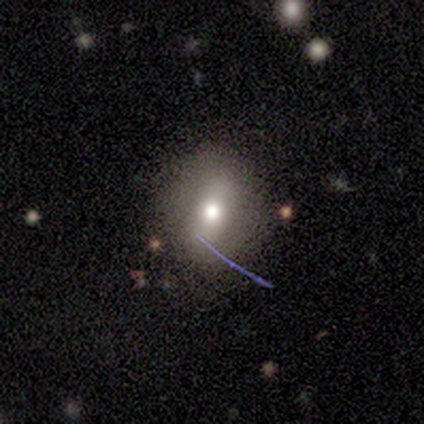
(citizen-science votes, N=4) This appears to be a smooth galaxy with no disk features (100%) that is round (75%). Merging: none (75%).